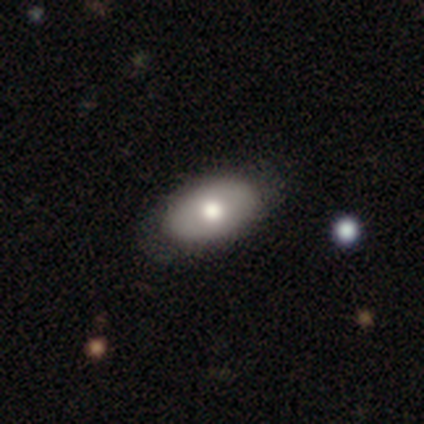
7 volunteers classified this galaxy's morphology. Q: Smooth or featured?
A: smooth (86%); runner-up: featured or disk (14%)
Q: How rounded?
A: in between (100%)
Q: Merging?
A: none (100%)